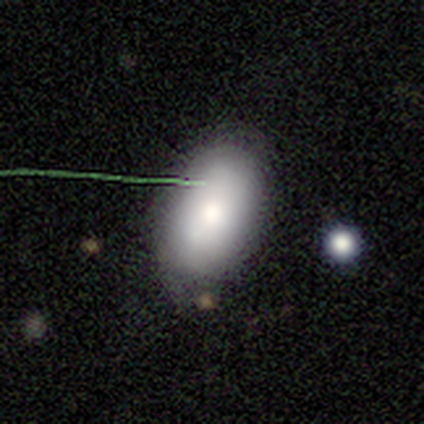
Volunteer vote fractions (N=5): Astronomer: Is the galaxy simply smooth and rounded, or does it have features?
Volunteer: smooth — 80%.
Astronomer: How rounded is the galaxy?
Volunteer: round — 50%, tied with in between at 50%.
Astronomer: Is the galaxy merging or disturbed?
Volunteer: none — 100%.